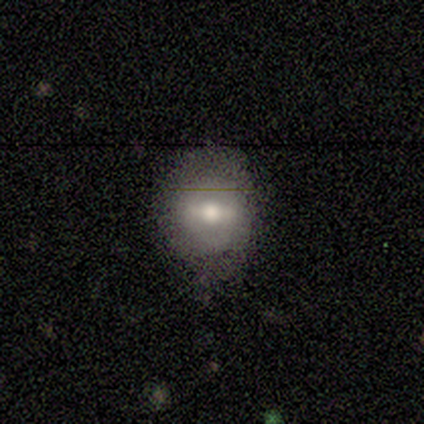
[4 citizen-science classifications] Volunteers were most divided on "smooth or featured" (2-way tie): smooth: 50%, featured or disk: 50%, star or artifact: 0%. More confident: how rounded — round (100%); merging — none (75%).